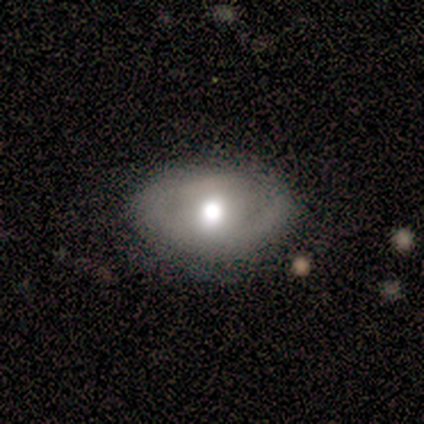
Q: Smooth or featured?
A: featured or disk (67%); runner-up: smooth (33%)
Q: Edge-on disk?
A: no (100%)
Q: Bar?
A: no (100%)
Q: Spiral arms?
A: no (75%); runner-up: yes (25%)
Q: Bulge size?
A: moderate (75%); runner-up: small (25%)
Q: Merging?
A: none (67%); runner-up: minor disturbance (17%)